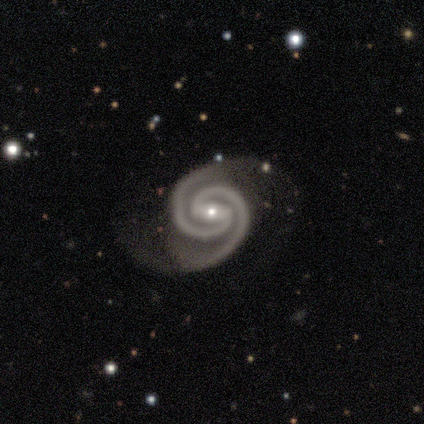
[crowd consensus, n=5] Volunteers were most divided on "bar": weak: 60%, strong: 40%, no: 0%. More confident: smooth or featured — featured or disk (100%); edge-on disk — no (100%); spiral arms — yes (100%); spiral arm count — 2 (100%); merging — none (80%); spiral winding — tight (60%); bulge size — small (60%).